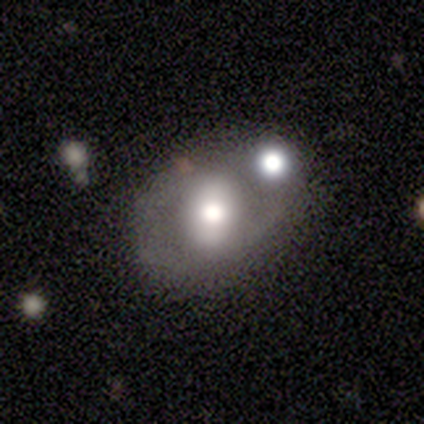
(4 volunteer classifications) Morphology: type=smooth (75%); roundness=in between (67%); merging=merger (50%).